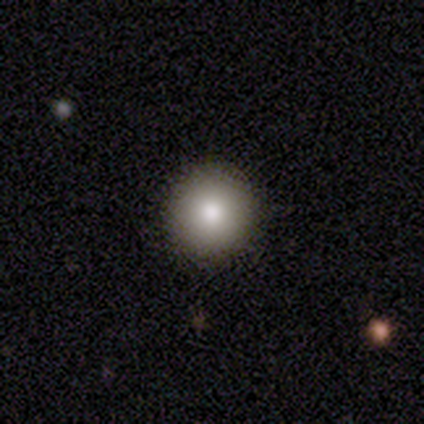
Morphology: type=smooth (80%); roundness=round (100%); merging=none (100%).